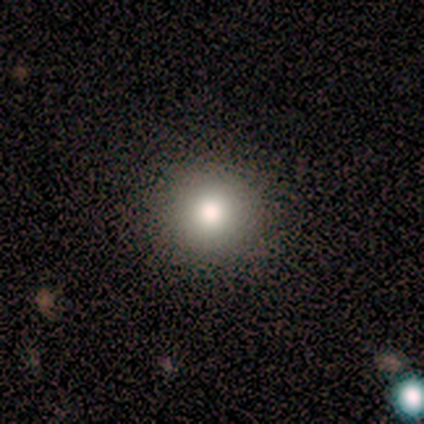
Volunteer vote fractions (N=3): This is likely a smooth galaxy (67%). How rounded: clearly round (100%). Merging: clearly none (100%).